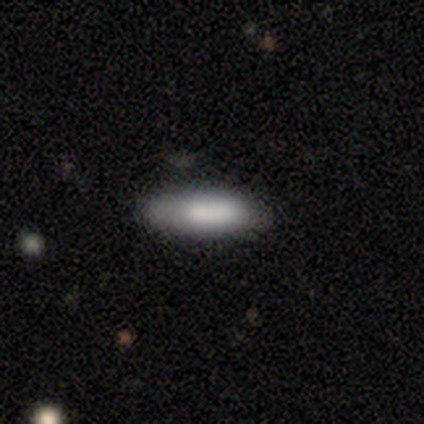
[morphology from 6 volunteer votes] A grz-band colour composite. It shows a smooth galaxy with no disk features (83%) that is in between round and cigar-shaped (80%). Merging: none (60%).